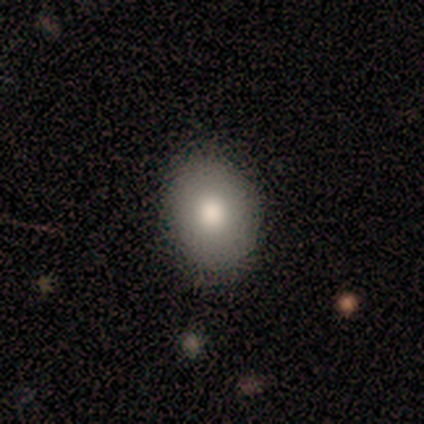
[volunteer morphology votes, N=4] smooth-or-featured: smooth: 100% | featured or disk: 0% | star or artifact: 0%
  how-rounded: in between: 75% | round: 25% | cigar-shaped: 0%
  merging: none: 100% | minor disturbance: 0% | major disturbance: 0% | merger: 0%